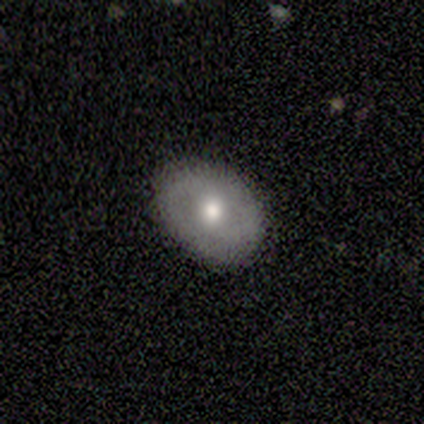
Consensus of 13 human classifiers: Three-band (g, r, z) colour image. It shows a smooth galaxy with no disk features (77%) that is in between round and cigar-shaped (60%). Merging: none (77%).